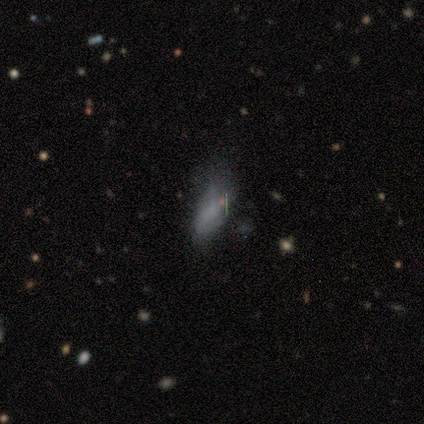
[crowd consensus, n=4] Smooth or featured?
  - smooth: 50% *
  - featured or disk: 25%
  - star or artifact: 25%
How rounded?
  - in between: 50% * (tied)
  - cigar-shaped: 50% * (tied)
  - round: 0%
Merging?
  - minor disturbance: 100% *
  - none: 0%
  - major disturbance: 0%
  - merger: 0%